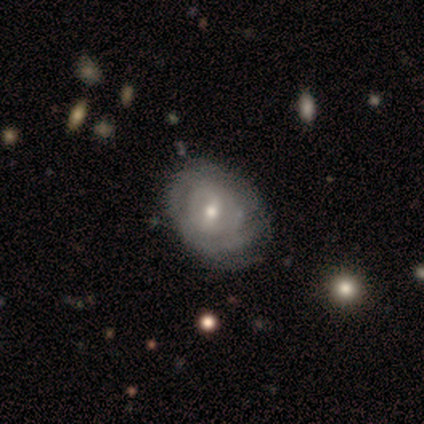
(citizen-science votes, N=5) A featured or disk galaxy (80%) with a weak bar (50%, tied with no), 2 (50%, tied with can't tell) tight (100%) spiral arms (50%, tied with no) and a moderate central bulge (75%). Merging: none (80%).